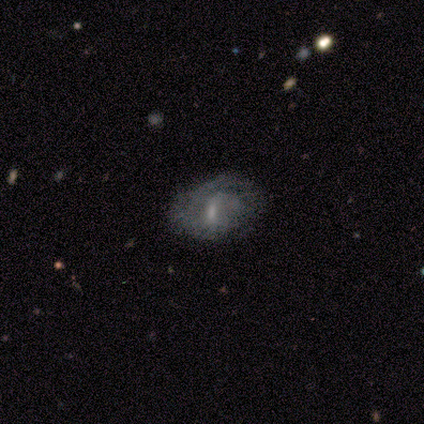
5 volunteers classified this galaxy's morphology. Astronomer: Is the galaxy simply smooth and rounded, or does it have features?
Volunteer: smooth — 40%, tied with featured or disk at 40%.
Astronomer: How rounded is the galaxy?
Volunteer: round — 100%.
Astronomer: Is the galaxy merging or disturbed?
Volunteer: major disturbance — 50%.